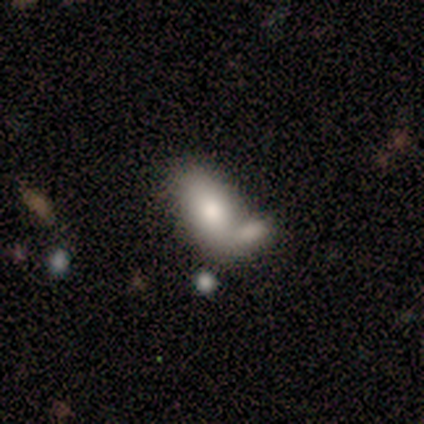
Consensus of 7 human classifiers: A smooth galaxy with no disk features (86%) that is in between round and cigar-shaped (100%). Merging: merger (50%).